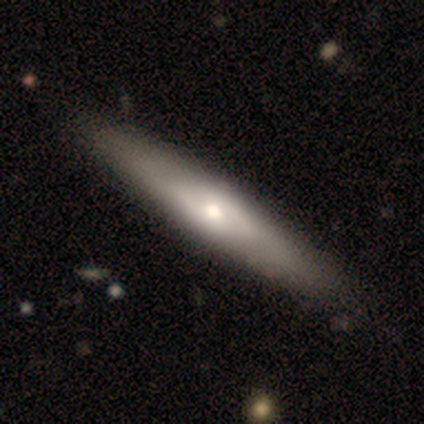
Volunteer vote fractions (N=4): A smooth galaxy with no disk features (50%, tied with featured or disk) that is in between round and cigar-shaped (50%, tied with cigar-shaped).

Vote fractions:
- Smooth or featured? smooth: 50% (tied) / featured or disk: 50% (tied) / star or artifact: 0%
- How rounded? in between: 50% (tied) / cigar-shaped: 50% (tied) / round: 0%
- Merging? none: 100% / minor disturbance: 0% / major disturbance: 0% / merger: 0%